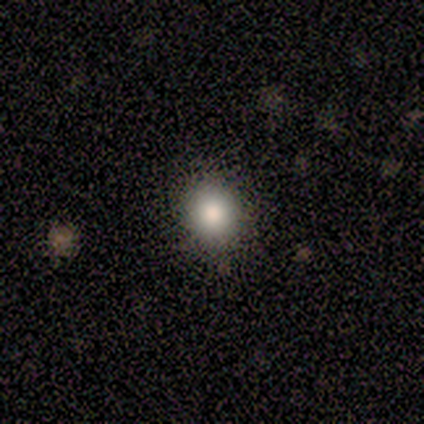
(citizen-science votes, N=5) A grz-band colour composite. It shows a smooth galaxy with no disk features (100%) that is round (100%). Merging: none (100%).